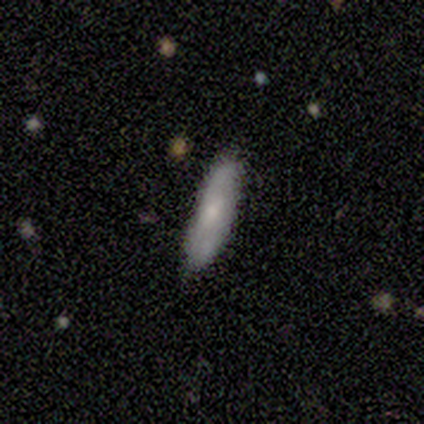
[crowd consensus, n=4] smooth_or_featured: smooth (p=0.75) [alt: featured or disk p=0.25]
how_rounded: cigar-shaped (p=0.67) [alt: in between p=0.33]
merging: none (p=1.00)